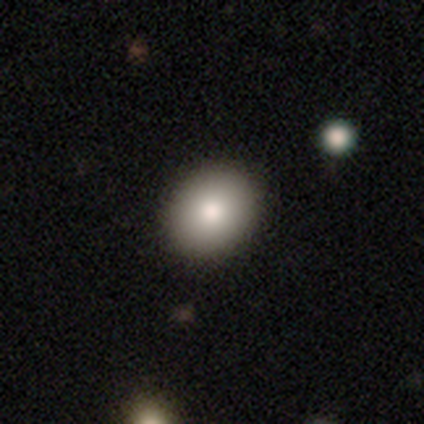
Overall: smooth (80%). How rounded: round (100%). Merging: none (100%).